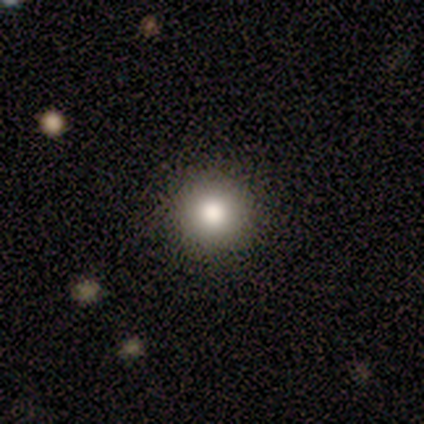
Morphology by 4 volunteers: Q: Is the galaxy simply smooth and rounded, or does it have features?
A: smooth — 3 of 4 (75%).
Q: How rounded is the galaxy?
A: round — 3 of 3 (100%).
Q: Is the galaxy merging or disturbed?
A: none — 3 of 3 (100%).